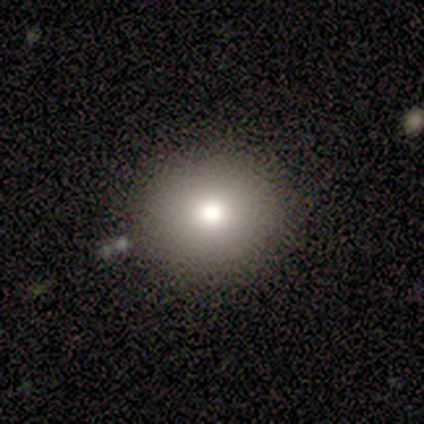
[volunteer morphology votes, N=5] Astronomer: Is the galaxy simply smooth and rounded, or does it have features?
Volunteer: smooth — 40%, tied with featured or disk at 40%.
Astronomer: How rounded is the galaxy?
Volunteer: round — 100%.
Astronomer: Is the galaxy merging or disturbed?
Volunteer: none — 100%.